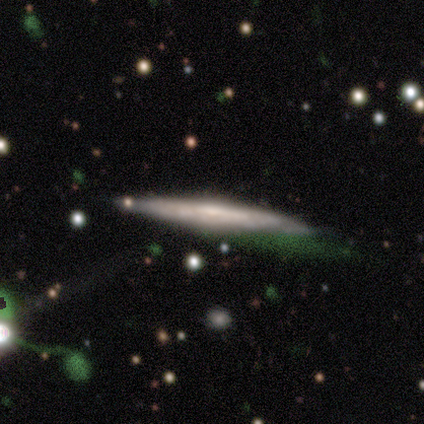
smooth-or-featured: featured or disk: 67% | smooth: 31% | star or artifact: 3%
  disk-edge-on: yes: 88% | no: 12%
    edge-on-bulge: none: 52% | rounded: 35% | boxy: 13%
  merging: none: 66% | minor disturbance: 26% | merger: 5% | major disturbance: 3%